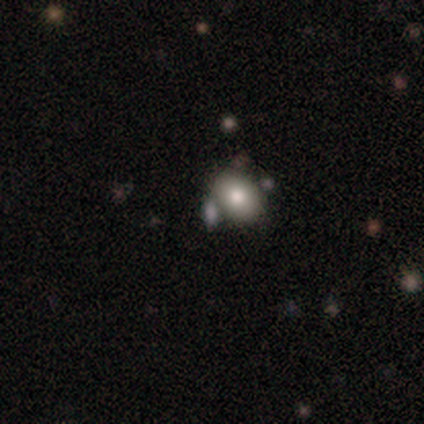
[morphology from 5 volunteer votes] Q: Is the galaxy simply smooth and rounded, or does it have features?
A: smooth — 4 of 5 (80%).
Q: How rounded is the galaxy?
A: round — 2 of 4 (50%, tied with in between).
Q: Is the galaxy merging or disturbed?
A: none — 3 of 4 (75%).